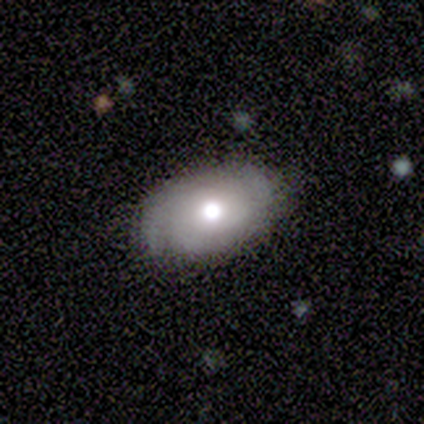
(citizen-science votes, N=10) Volunteers were most divided on "bulge size" (2-way tie): large: 33%, moderate: 33%, dominant: 17%, small: 17%, none: 0%. More confident: bar — no (100%); spiral arms — yes (100%); merging — none (90%); edge-on disk — no (86%); smooth or featured — featured or disk (70%); spiral winding — medium (50%); spiral arm count — can't tell (50%).